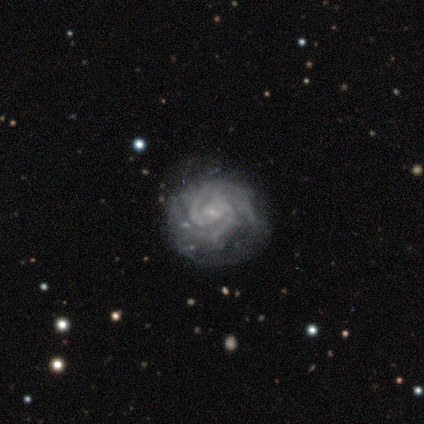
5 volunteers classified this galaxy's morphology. Smooth or featured?
  - featured or disk: 100% *
  - smooth: 0%
  - star or artifact: 0%
Edge-on disk?
  - no: 100% *
  - yes: 0%
Bar?
  - weak: 100% *
  - strong: 0%
  - no: 0%
Spiral arms?
  - yes: 100% *
  - no: 0%
Spiral winding?
  - tight: 100% *
  - medium: 0%
  - loose: 0%
Spiral arm count?
  - more than 4: 40% *
  - 2: 20%
  - 3: 20%
  - can't tell: 20%
  - 1: 0%
  - 4: 0%
Bulge size?
  - small: 100% *
  - dominant: 0%
  - large: 0%
  - moderate: 0%
  - none: 0%
Merging?
  - none: 80% *
  - minor disturbance: 20%
  - major disturbance: 0%
  - merger: 0%